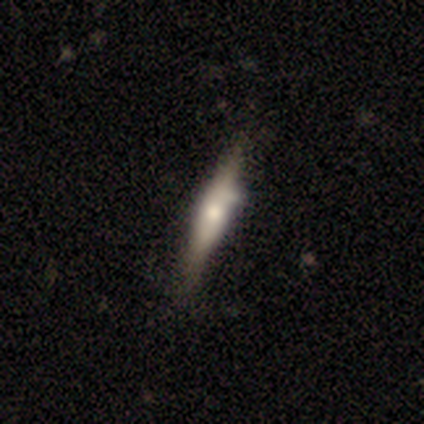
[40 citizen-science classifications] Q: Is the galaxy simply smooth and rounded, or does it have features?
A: featured or disk — 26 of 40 (65%).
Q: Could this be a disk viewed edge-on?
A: yes — 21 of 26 (81%).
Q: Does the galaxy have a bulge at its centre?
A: rounded — 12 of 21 (57%).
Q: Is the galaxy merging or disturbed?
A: none — 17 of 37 (46%).